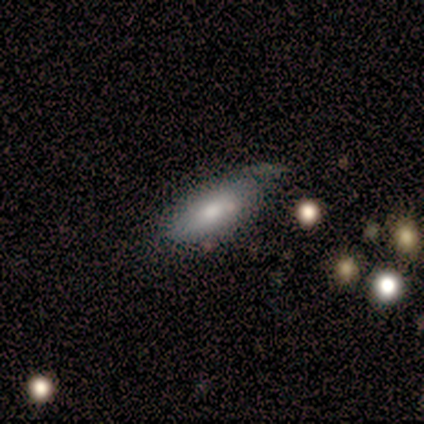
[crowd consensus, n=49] Q: Smooth or featured?
A: smooth (71%); runner-up: featured or disk (24%)
Q: How rounded?
A: in between (83%); runner-up: cigar-shaped (17%)
Q: Merging?
A: none (47%); runner-up: minor disturbance (40%)